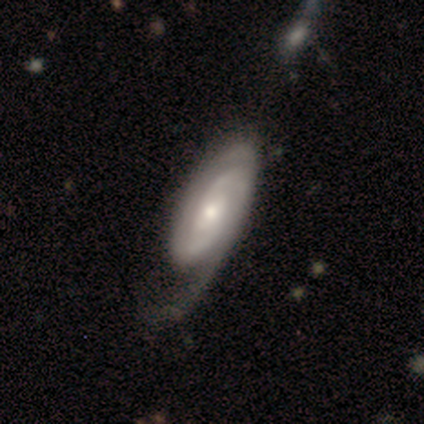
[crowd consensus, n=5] A featured or disk galaxy (80%) with no bar (100%), 2 (67%) medium (67%) spiral arms (100%) and a small central bulge (67%). Merging: minor disturbance (60%).